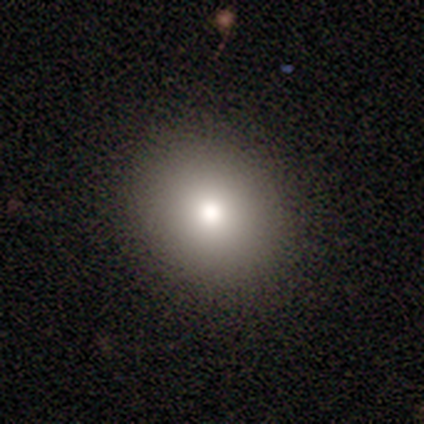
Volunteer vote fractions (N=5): smooth 80%, featured or disk 20%, star or artifact 0%. Down the decision tree: how rounded — round (50%, tied with in between); merging — none (80%).